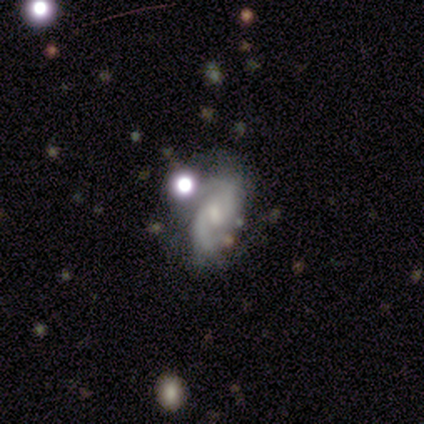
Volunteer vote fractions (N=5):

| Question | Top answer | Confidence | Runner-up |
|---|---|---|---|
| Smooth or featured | featured or disk | 60% | smooth (20%) |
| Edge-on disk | no | 100% | — |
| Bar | strong | 33% | tied: weak (33%), no (33%) |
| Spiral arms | yes | 100% | — |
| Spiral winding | tight | 33% | tied: medium (33%), loose (33%) |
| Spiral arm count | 2 | 33% | tied: 3 (33%), can't tell (33%) |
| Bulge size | small | 67% | moderate (33%) |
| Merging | none | 50% | minor disturbance (25%) |